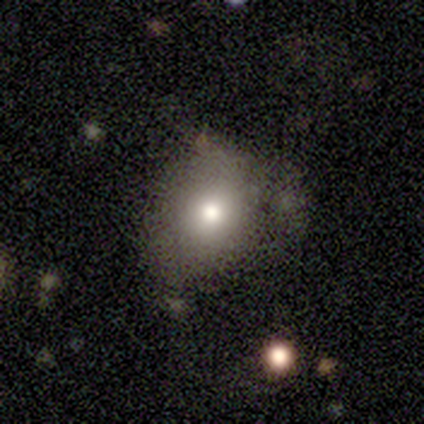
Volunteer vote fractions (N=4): This is likely a smooth galaxy (75%). How rounded: likely in between (67%). Merging: possibly minor disturbance (50%).